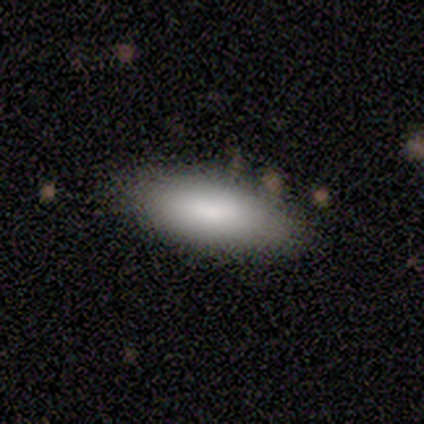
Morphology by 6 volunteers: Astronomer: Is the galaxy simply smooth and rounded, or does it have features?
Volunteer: smooth — 100%.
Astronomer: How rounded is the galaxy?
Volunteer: in between — 50%, tied with cigar-shaped at 50%.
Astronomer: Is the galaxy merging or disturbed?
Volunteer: none — 83%.